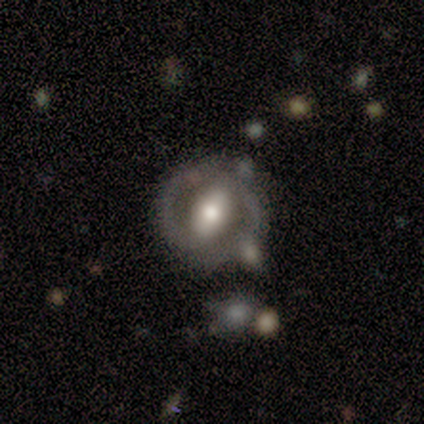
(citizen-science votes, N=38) A featured or disk galaxy (74%) with a strong bar (52%), 2 (80%) medium (47%) spiral arms (56%) and a moderate central bulge (59%).

Vote fractions:
- Smooth or featured? featured or disk: 74% / smooth: 26% / star or artifact: 0%
- Edge-on disk? no: 96% / yes: 4%
- Bar? strong: 52% / no: 26% / weak: 22%
- Spiral arms? yes: 56% / no: 44%
- Spiral winding? medium: 47% / loose: 33% / tight: 20%
- Spiral arm count? 2: 80% / can't tell: 13% / 1: 7% / 3: 0% / 4: 0% / more than 4: 0%
- Bulge size? moderate: 59% / large: 30% / small: 7% / none: 4% / dominant: 0%
- Merging? none: 58% / minor disturbance: 16% / merger: 16% / major disturbance: 11%